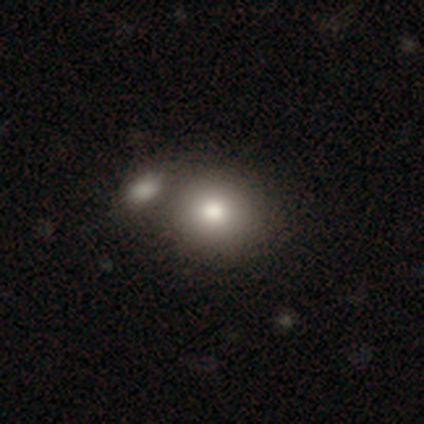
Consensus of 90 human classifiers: This is likely a smooth galaxy (72%). How rounded: likely round (78%). Merging: possibly none (45%).